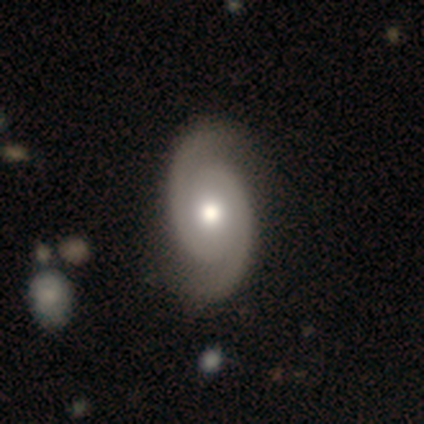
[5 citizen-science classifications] A featured or disk galaxy (60%) with no bar (100%), 2 (100%) tight (33%, tied with medium and loose) spiral arms (100%) and a moderate central bulge (67%). Merging: none (67%).